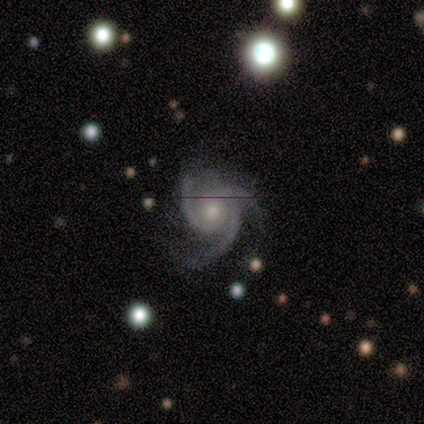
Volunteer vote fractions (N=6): Overall: featured or disk (83%). Edge-on disk: no (100%). Bar: no (60%; weak 40%). Spiral arms: yes (100%). Spiral arm count: 3 (80%). Spiral winding: tight (60%; medium 40%). Bulge size: moderate (80%). Merging: none (40%, tied with major disturbance).